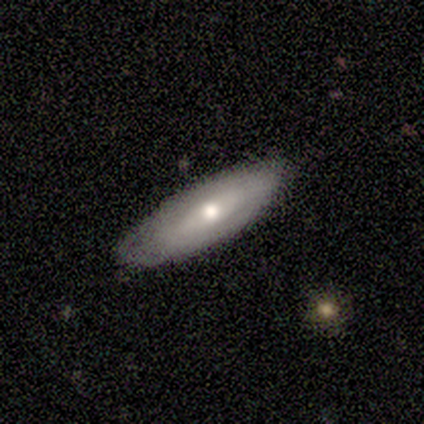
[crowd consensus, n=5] Smooth or featured: smooth — 40% (tied with featured or disk — 40%)
How rounded: in between — 50% (tied with cigar-shaped — 50%)
Merging: none — 100%